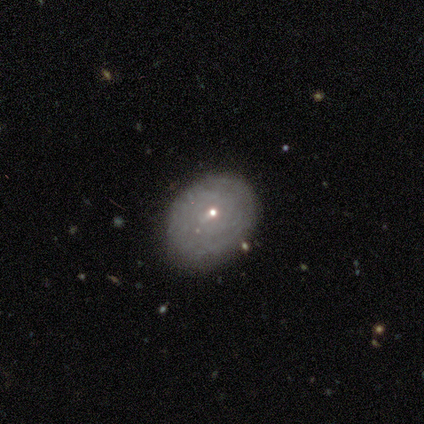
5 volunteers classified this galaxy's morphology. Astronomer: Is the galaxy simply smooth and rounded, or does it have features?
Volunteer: featured or disk — 60%.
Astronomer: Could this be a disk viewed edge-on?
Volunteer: no — 100%.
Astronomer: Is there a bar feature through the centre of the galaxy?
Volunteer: no — 100%.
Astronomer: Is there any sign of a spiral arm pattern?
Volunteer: no — 100%.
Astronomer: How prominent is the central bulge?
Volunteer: small — 100%.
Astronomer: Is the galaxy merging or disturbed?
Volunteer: none — 100%.